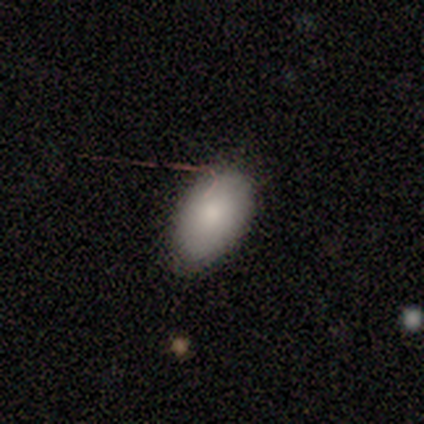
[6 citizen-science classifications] Overall: smooth (83%). How rounded: in between (80%). Merging: none (83%).